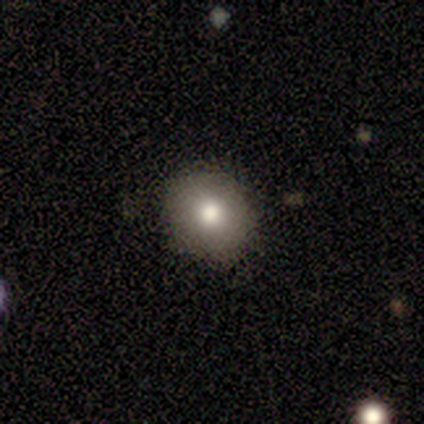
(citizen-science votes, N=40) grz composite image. It shows a smooth galaxy with no disk features (80%) that is round (78%). Merging: none (86%).